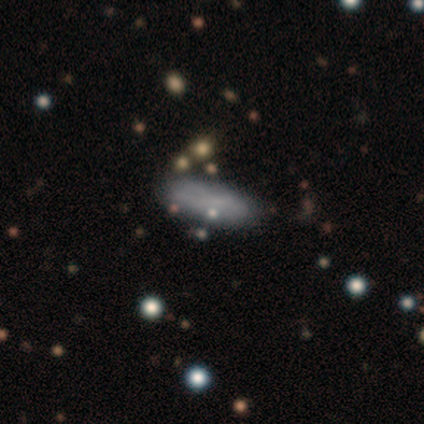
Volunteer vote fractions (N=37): This is clearly a smooth galaxy (81%). How rounded: likely in between (70%). Merging: clearly none (85%).